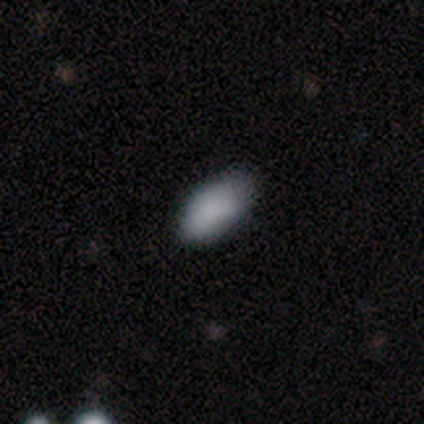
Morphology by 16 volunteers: Smooth or featured? 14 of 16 (88%) said smooth. How rounded? 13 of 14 (93%) said in between. Merging? 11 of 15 (73%) said none.